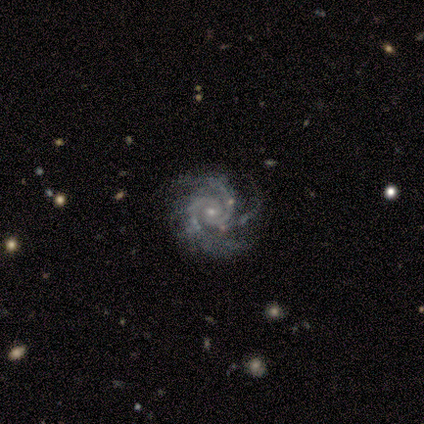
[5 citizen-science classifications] This appears to be a featured or disk galaxy (100%) with no bar (60%), 2 (40%, tied with 3) medium (60%) spiral arms (100%) and a small central bulge (80%). Merging: none (80%).